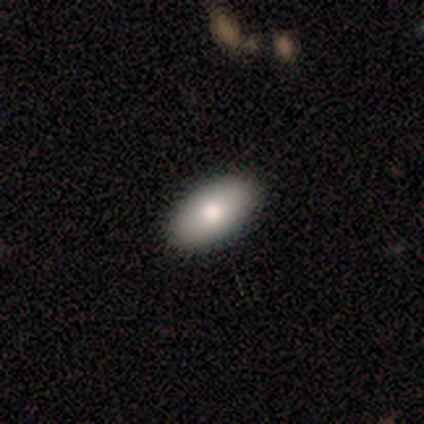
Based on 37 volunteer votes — Q: Smooth or featured?
A: smooth (76%); runner-up: featured or disk (16%)
Q: How rounded?
A: in between (96%); runner-up: round (4%)
Q: Merging?
A: none (91%); runner-up: minor disturbance (3%)